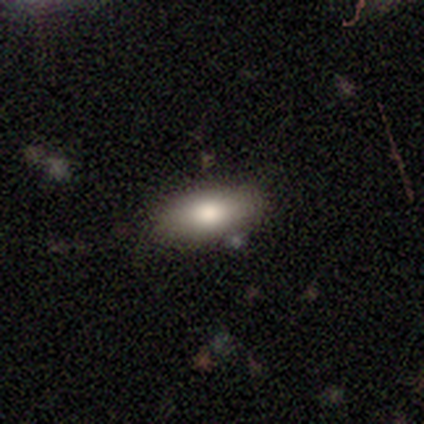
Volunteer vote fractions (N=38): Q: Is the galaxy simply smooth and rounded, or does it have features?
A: smooth — 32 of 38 (84%).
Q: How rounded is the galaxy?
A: in between — 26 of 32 (81%).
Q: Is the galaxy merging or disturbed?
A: none — 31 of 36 (86%).